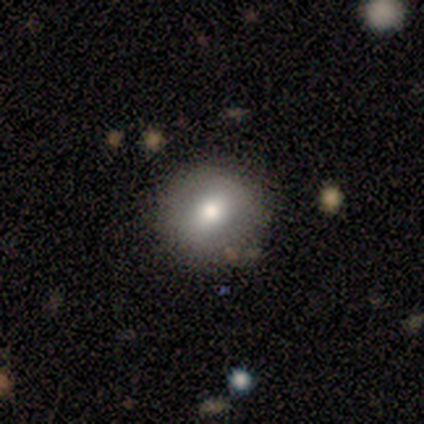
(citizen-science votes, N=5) Volunteers were most divided on "smooth or featured": smooth: 80%, featured or disk: 20%, star or artifact: 0%. More confident: how rounded — round (100%); merging — none (80%).